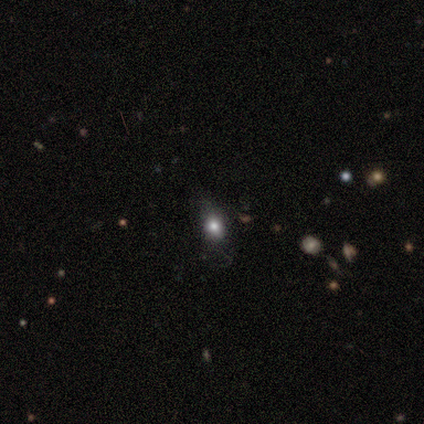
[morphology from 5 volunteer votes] smooth-or-featured: smooth: 60% | featured or disk: 20% | star or artifact: 20%
  how-rounded: in between: 67% | round: 33% | cigar-shaped: 0%
  merging: none: 75% | minor disturbance: 25% | major disturbance: 0% | merger: 0%